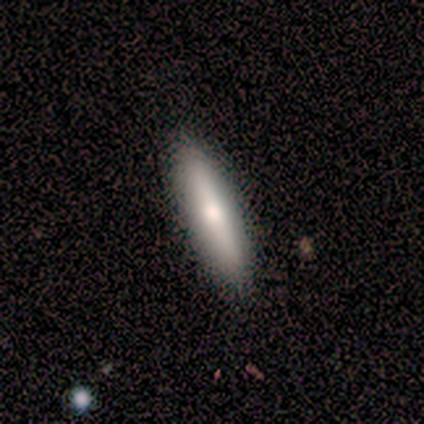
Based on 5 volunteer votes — Overall: smooth (80%). How rounded: cigar-shaped (75%). Merging: none (100%).